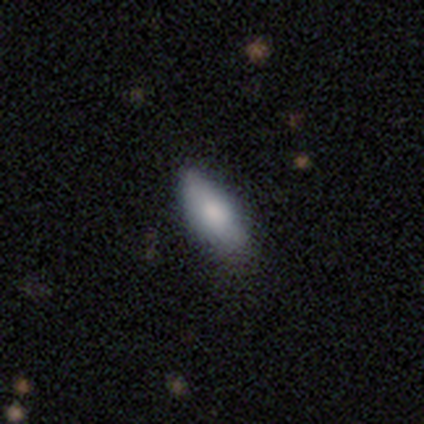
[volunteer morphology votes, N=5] type=smooth (60%); roundness=in between (100%); merging=none (60%).